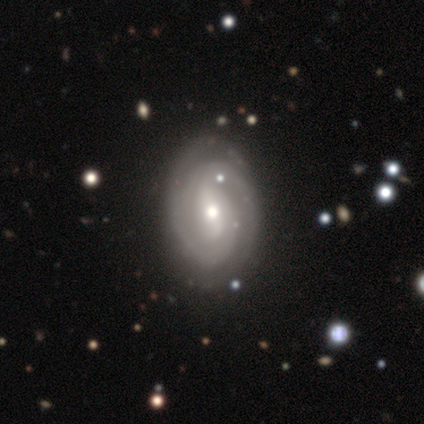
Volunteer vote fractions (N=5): Smooth or featured: featured or disk — 60% (smooth — 20%)
Edge-on disk: no — 100%
Bar: strong — 67% (weak — 33%)
Spiral arms: yes — 100%
Spiral winding: medium — 67% (tight — 33%)
Spiral arm count: 2 — 67% (can't tell — 33%)
Bulge size: moderate — 100%
Merging: none — 75% (major disturbance — 25%)